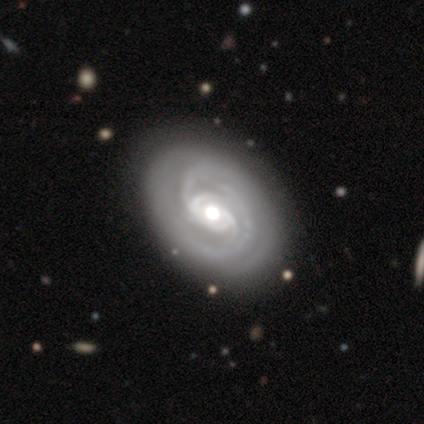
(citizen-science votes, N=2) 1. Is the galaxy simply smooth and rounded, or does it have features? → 100% featured or disk, 0% smooth, 0% star or artifact.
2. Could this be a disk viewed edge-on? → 100% no, 0% yes.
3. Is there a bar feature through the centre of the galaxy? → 100% weak, 0% strong, 0% no.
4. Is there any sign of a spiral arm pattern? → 100% yes, 0% no.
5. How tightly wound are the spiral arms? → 50% tight (tied), 50% loose (tied), 0% medium.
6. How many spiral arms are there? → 50% 2 (tied), 50% 3 (tied), 0% 1, 0% 4, 0% more than 4, 0% can't tell.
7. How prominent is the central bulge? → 100% moderate, 0% dominant, 0% large, 0% small, 0% none.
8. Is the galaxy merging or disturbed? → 100% none, 0% minor disturbance, 0% major disturbance, 0% merger.